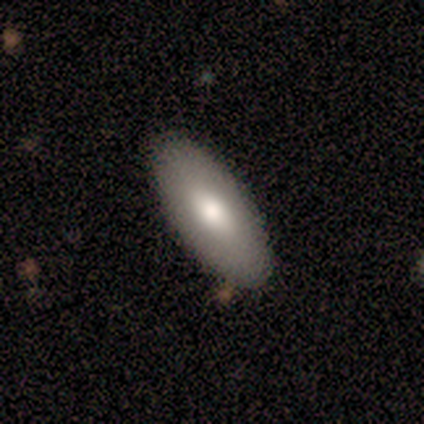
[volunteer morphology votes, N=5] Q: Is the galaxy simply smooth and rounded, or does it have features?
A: smooth — 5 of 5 (100%).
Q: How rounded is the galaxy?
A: in between — 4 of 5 (80%).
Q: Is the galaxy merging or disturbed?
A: none — 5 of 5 (100%).